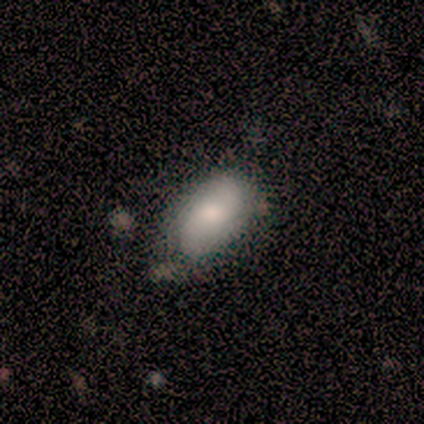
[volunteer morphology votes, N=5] smooth-or-featured: smooth: 40% (tied) | featured or disk: 40% (tied) | star or artifact: 20%
  how-rounded: in between: 100% | round: 0% | cigar-shaped: 0%
  merging: none: 75% | minor disturbance: 25% | major disturbance: 0% | merger: 0%